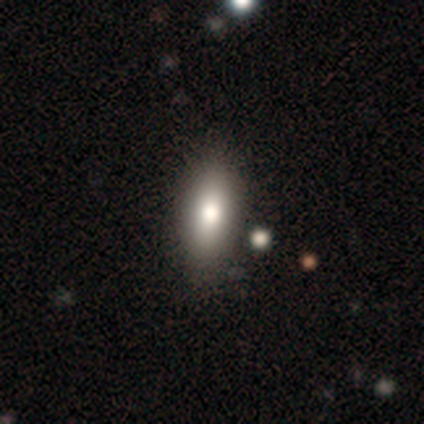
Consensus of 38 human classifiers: smooth_or_featured: smooth (p=0.74) [alt: featured or disk p=0.18]
how_rounded: in between (p=0.89) [alt: cigar-shaped p=0.11]
merging: none (p=0.66) [alt: merger p=0.06]